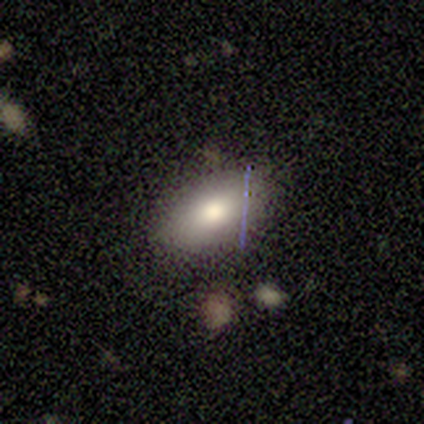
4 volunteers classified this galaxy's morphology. A smooth galaxy with no disk features (75%) that is in between round and cigar-shaped (100%).

Vote fractions:
- Smooth or featured? smooth: 75% / star or artifact: 25% / featured or disk: 0%
- How rounded? in between: 100% / round: 0% / cigar-shaped: 0%
- Merging? none: 100% / minor disturbance: 0% / major disturbance: 0% / merger: 0%